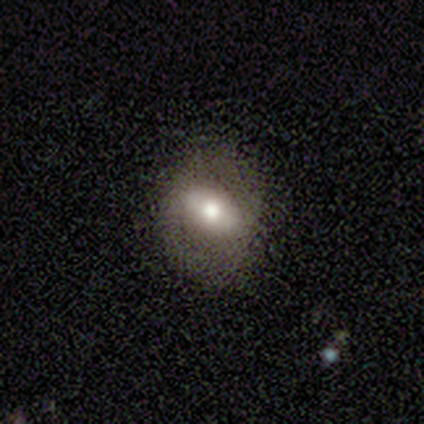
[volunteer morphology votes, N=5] Smooth or featured?
  - smooth: 60% *
  - featured or disk: 40%
  - star or artifact: 0%
How rounded?
  - in between: 100% *
  - round: 0%
  - cigar-shaped: 0%
Merging?
  - none: 100% *
  - minor disturbance: 0%
  - major disturbance: 0%
  - merger: 0%